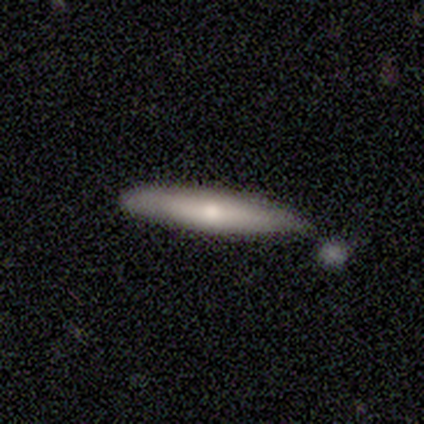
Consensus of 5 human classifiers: Volunteers were most divided on "merging" (2-way tie): none: 40%, minor disturbance: 40%, merger: 20%, major disturbance: 0%. More confident: how rounded — cigar-shaped (100%); smooth or featured — smooth (60%).